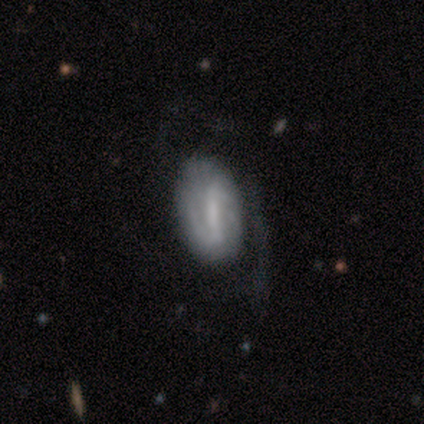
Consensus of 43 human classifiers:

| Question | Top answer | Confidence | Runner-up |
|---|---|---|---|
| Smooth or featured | featured or disk | 53% | smooth (40%) |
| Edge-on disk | no | 100% | — |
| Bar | strong | 48% | tied: weak (48%) |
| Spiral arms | yes | 78% | no (22%) |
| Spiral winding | tight | 44% | medium (33%) |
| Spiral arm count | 2 | 61% | 1 (22%) |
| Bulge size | none | 43% | small (30%) |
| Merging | none | 55% | minor disturbance (22%) |